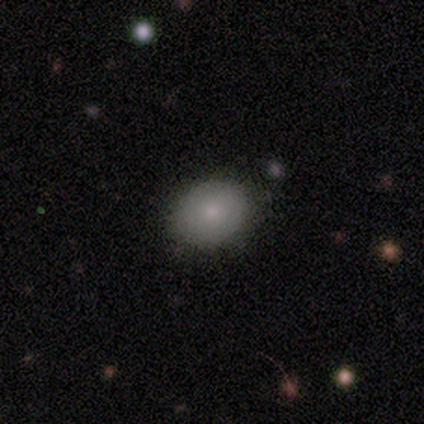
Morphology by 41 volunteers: Overall: smooth (73%). How rounded: in between (70%; round 30%). Merging: none (87%).